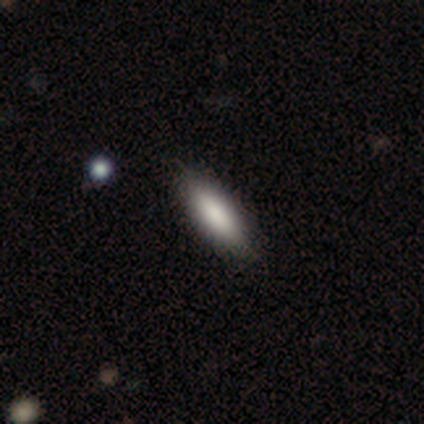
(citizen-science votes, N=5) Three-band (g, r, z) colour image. It shows a smooth galaxy with no disk features (60%) that is cigar-shaped (67%). Merging: none (100%).